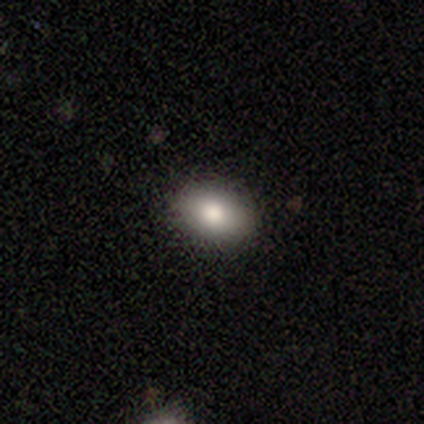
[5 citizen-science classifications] smooth 100%, featured or disk 0%, star or artifact 0%. Down the decision tree: how rounded — in between (100%); merging — none (100%).